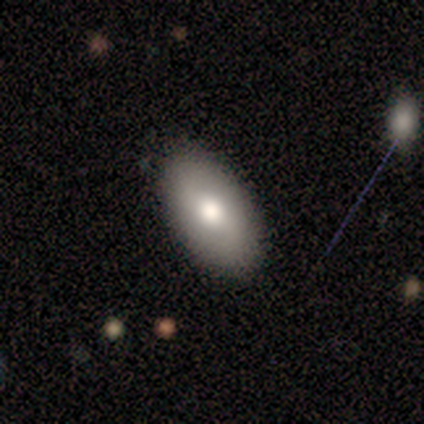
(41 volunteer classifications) smooth_or_featured: smooth (p=0.76) [alt: featured or disk p=0.17]
how_rounded: in between (p=0.97) [alt: round p=0.03]
merging: none (p=0.95) [alt: minor disturbance p=0.05]